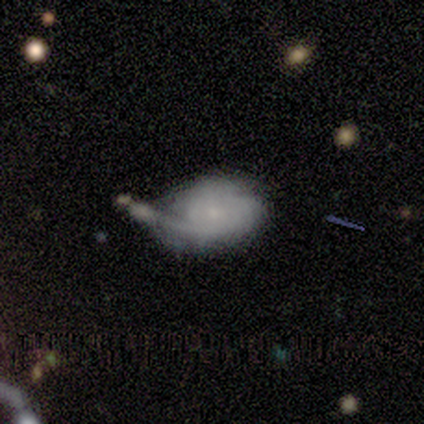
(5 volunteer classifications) Overall: featured or disk (60%; smooth 40%). Edge-on disk: no (100%). Bar: no (100%). Spiral arms: yes (100%). Spiral arm count: 1 (33%, tied with 3 and can't tell). Spiral winding: tight (67%; medium 33%). Bulge size: none (67%; small 33%). Merging: none (80%).